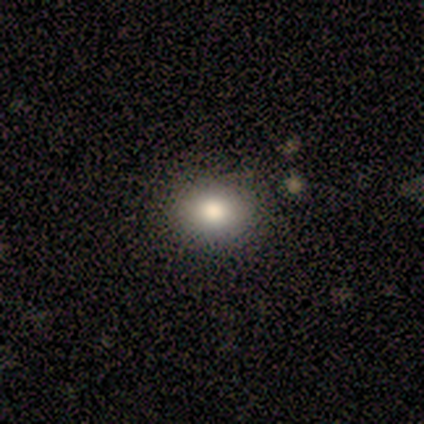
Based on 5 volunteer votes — smooth 40% (tied), star or artifact 40% (tied), featured or disk 20%. Down the decision tree: how rounded — round (100%); merging — none (100%).